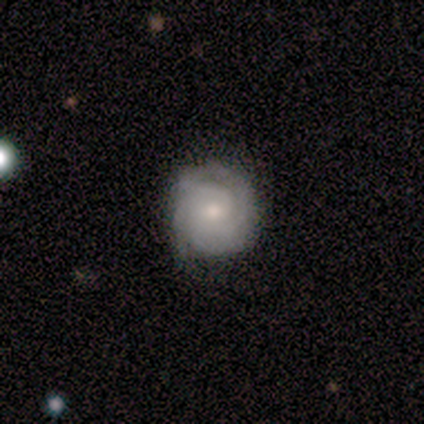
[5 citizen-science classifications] This appears to be a featured or disk galaxy (100%) with no bar (80%), 3 (40%, tied with can't tell) tight (80%) spiral arms (100%) and a small central bulge (60%). Merging: none (80%).